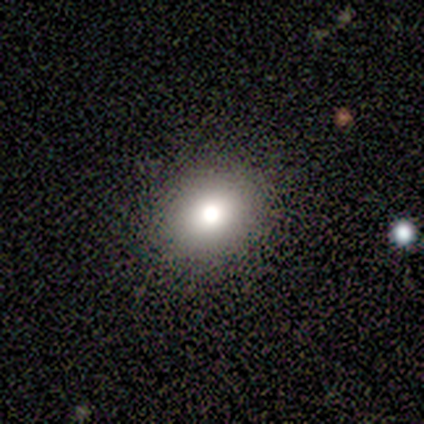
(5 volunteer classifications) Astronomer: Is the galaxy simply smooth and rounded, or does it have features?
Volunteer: smooth — 60% (runner-up: featured or disk, 40%).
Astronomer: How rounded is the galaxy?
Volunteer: round — 100%.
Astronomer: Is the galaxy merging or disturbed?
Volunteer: none — 80%.